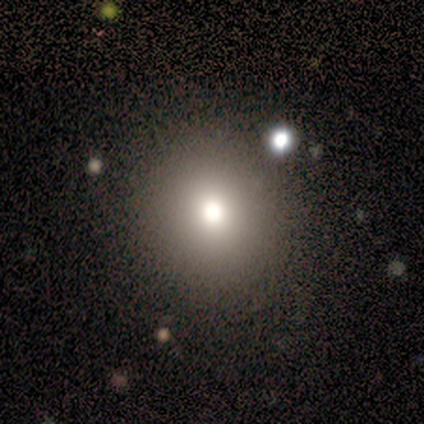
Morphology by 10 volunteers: Smooth or featured? smooth (90%)
How rounded? round (89%)
Merging? none (89%)